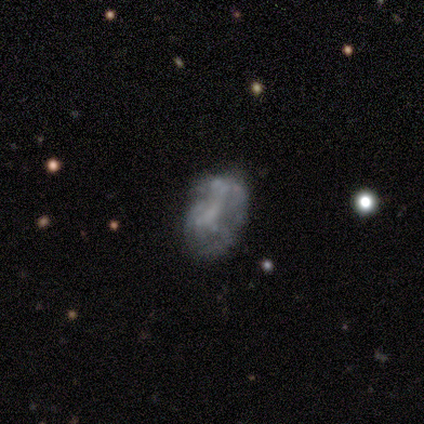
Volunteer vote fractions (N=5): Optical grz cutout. It shows a featured or disk galaxy (60%) with a strong bar (33%, tied with weak and no), no spiral arms (67%) and a moderate central bulge (33%, tied with small and none). Merging: none (40%, tied with minor disturbance).